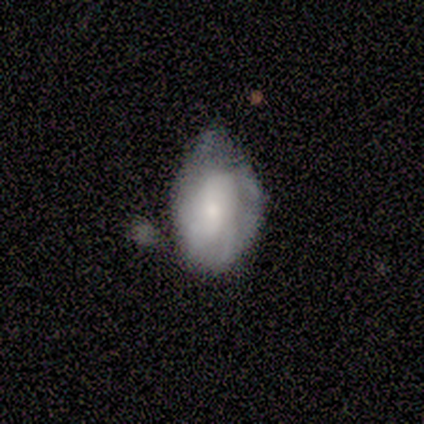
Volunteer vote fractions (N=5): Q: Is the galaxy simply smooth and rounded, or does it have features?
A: smooth — 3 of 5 (60%).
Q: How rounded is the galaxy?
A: in between — 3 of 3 (100%).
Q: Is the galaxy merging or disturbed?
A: minor disturbance — 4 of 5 (80%).